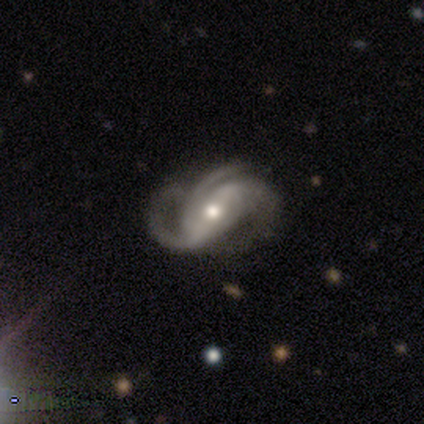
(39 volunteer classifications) Smooth or featured? featured or disk (92%)
Edge-on disk? no (97%)
Bar? strong (43%)
Spiral arms? yes (100%)
Spiral winding? medium (54%)
Spiral arm count? 3 (66%)
Bulge size? moderate (63%)
Merging? none (55%)